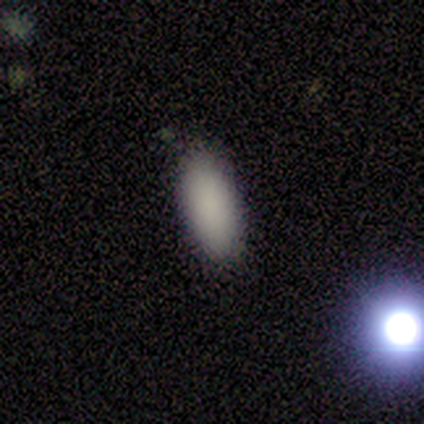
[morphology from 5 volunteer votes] Q: Smooth or featured?
A: smooth (80%); runner-up: featured or disk (20%)
Q: How rounded?
A: in between (100%)
Q: Merging?
A: none (100%)